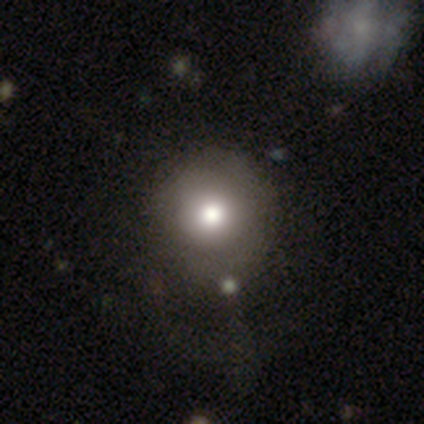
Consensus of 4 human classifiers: A smooth galaxy with no disk features (75%) that is round (67%). Merging: none (67%).